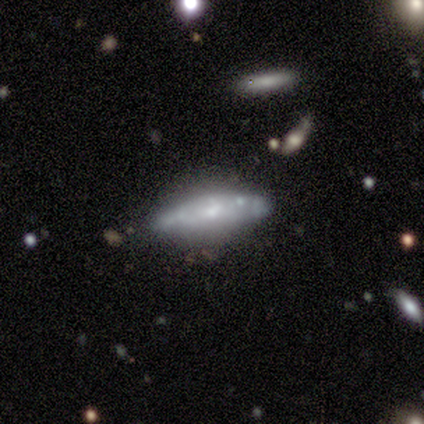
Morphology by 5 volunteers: smooth_or_featured: featured or disk (p=0.60) [alt: smooth p=0.20]
disk_edge_on: no (p=1.00)
bar: no (p=0.67) [alt: weak p=0.33]
has_spiral_arms: no (p=0.67) [alt: yes p=0.33]
bulge_size: small (p=0.67) [alt: large p=0.33]
merging: none (p=0.50) [tied with: minor disturbance p=0.50]